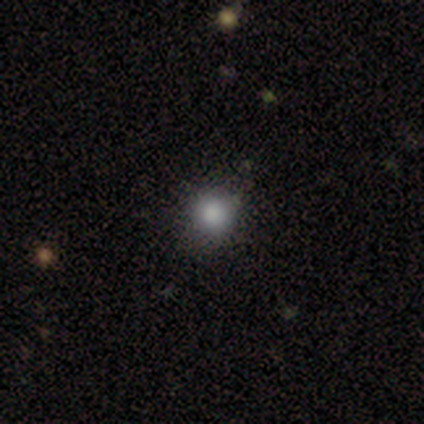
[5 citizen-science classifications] smooth 60%, featured or disk 20%, star or artifact 20%. Down the decision tree: how rounded — round (100%); merging — none (75%).